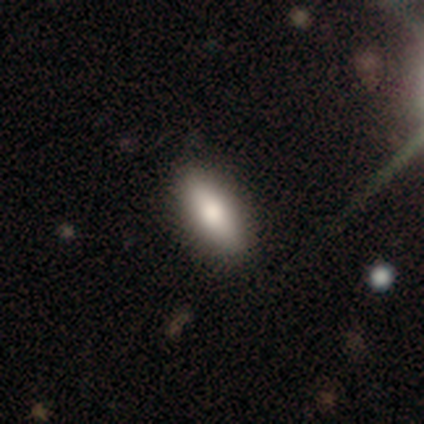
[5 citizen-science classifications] Smooth or featured? smooth (100%)
How rounded? in between (60%)
Merging? none (100%)